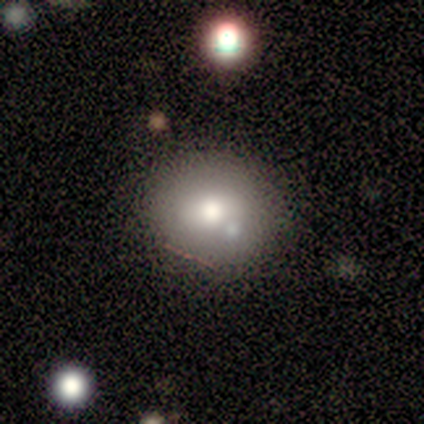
Smooth or featured? smooth (64%)
How rounded? round (57%)
Merging? none (89%)